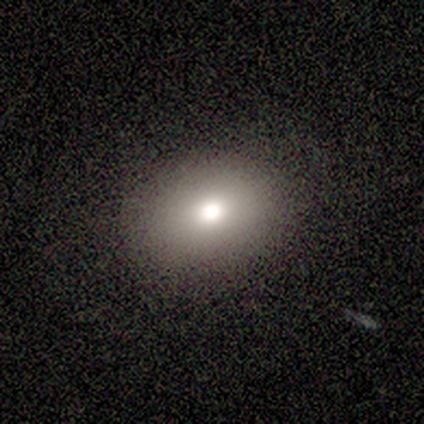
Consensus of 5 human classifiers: Smooth or featured? smooth (60%)
How rounded? in between (67%)
Merging? none (100%)